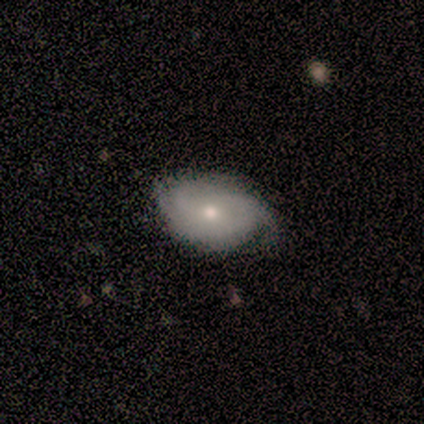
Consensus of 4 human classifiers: Morphology: type=smooth (50%, tied with featured or disk); roundness=in between (100%); merging=none (75%).